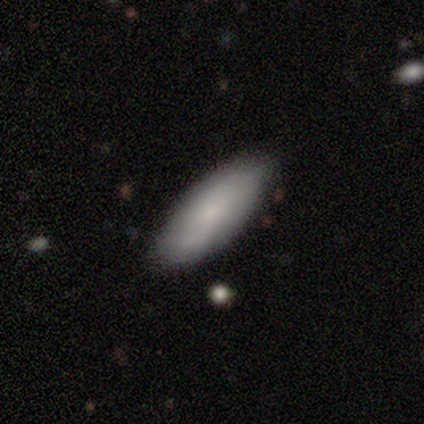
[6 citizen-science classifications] smooth 83%, featured or disk 17%, star or artifact 0%. Down the decision tree: how rounded — in between (100%); merging — none (67%).